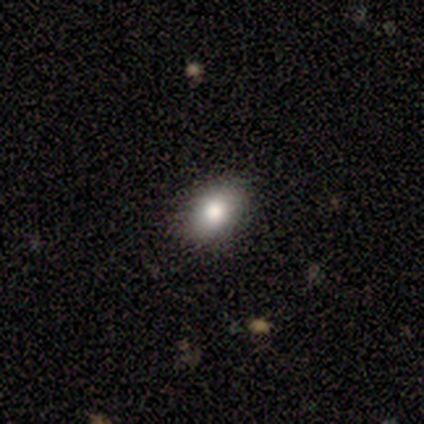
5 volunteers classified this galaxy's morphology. type=smooth (80%); roundness=in between (100%); merging=none (75%).